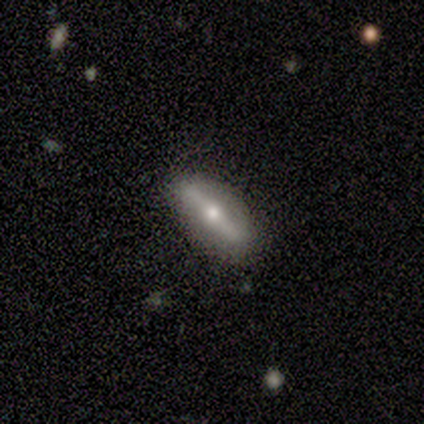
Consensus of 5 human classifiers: This is likely a featured or disk galaxy (60%). It is clearly not viewed edge-on (100%). Bar: clearly strong (100%). Spiral arm pattern: clearly no (100%). Central bulge: clearly small (100%). Merging: likely none (60%).